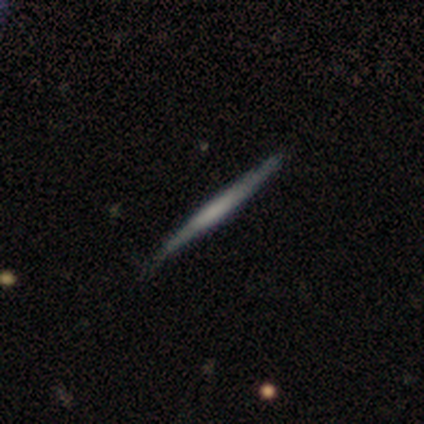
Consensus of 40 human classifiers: This is possibly a featured or disk galaxy (52%). It is clearly viewed edge-on (100%). Edge-on bulge: likely none (71%). Merging: clearly none (89%).